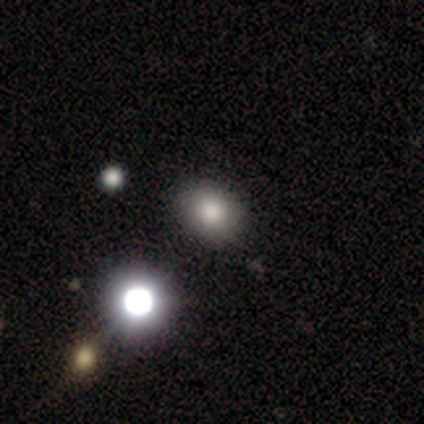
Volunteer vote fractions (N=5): A smooth galaxy with no disk features (60%) that is in between round and cigar-shaped (67%).

Vote fractions:
- Smooth or featured? smooth: 60% / featured or disk: 40% / star or artifact: 0%
- How rounded? in between: 67% / round: 33% / cigar-shaped: 0%
- Merging? none: 60% / minor disturbance: 20% / merger: 20% / major disturbance: 0%